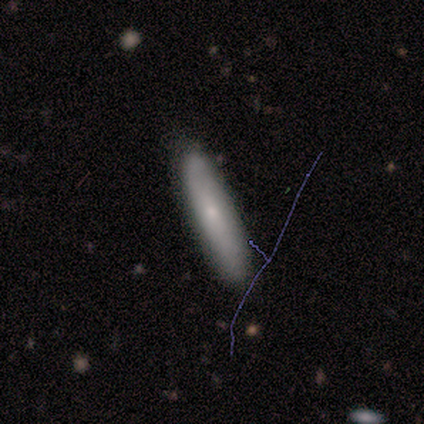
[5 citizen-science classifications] Overall: smooth (100%). How rounded: cigar-shaped (80%). Merging: none (80%).